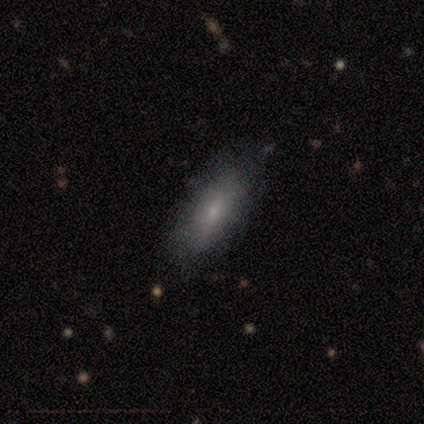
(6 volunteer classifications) Morphology: type=smooth (100%); roundness=in between (83%); merging=none (83%).